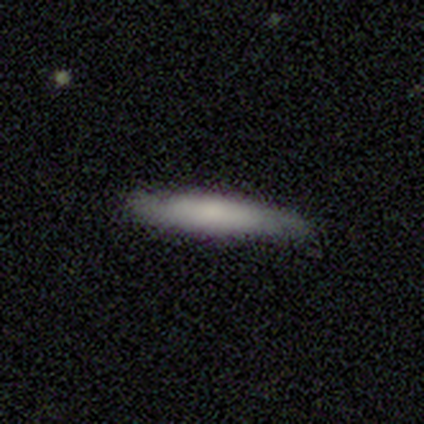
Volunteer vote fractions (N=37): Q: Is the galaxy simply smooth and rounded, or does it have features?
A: smooth — 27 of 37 (73%).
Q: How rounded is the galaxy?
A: cigar-shaped — 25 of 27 (93%).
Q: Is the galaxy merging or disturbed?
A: none — 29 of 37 (78%).